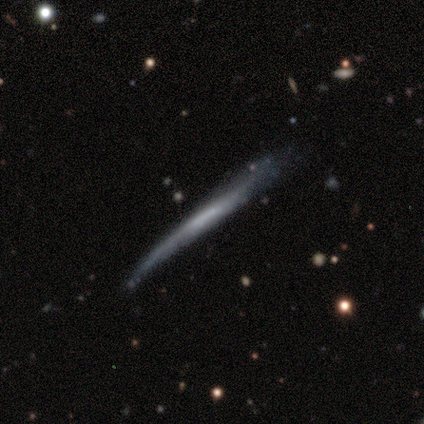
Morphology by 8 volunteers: This appears to be a featured or disk galaxy (62%) viewed edge-on (100%) with no central bulge (80%). Merging: minor disturbance (57%).